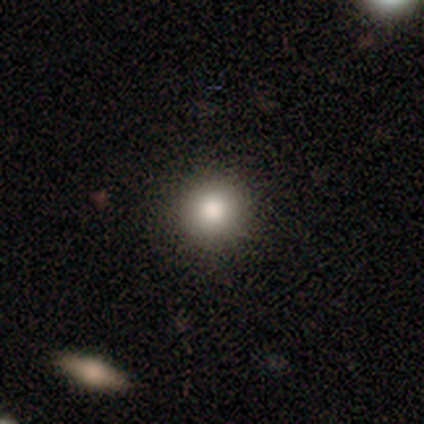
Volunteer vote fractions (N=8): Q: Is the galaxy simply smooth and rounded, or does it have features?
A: smooth — 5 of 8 (62%).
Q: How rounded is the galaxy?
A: round — 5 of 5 (100%).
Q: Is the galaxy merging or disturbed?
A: none — 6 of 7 (86%).